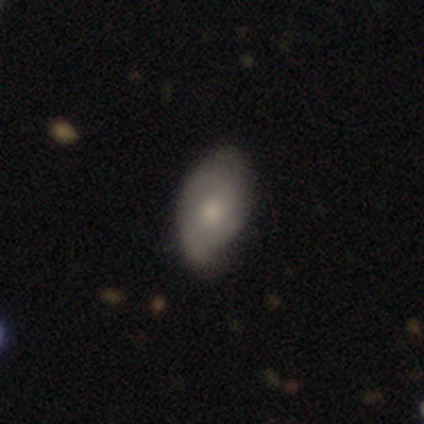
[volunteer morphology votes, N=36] smooth_or_featured: smooth (p=0.44) [alt: featured or disk p=0.39]
how_rounded: in between (p=0.94) [alt: round p=0.06]
merging: none (p=0.70) [alt: minor disturbance p=0.27]